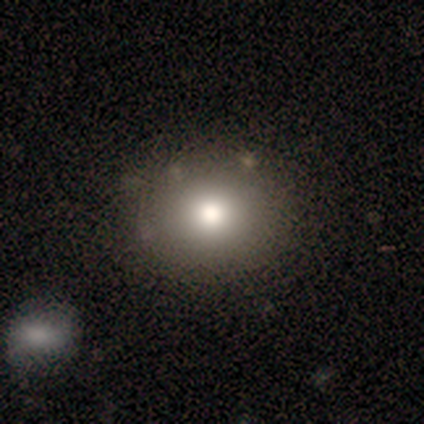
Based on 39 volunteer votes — Volunteers were most divided on "smooth or featured": smooth: 72%, featured or disk: 15%, star or artifact: 13%. More confident: how rounded — round (96%); merging — none (85%).